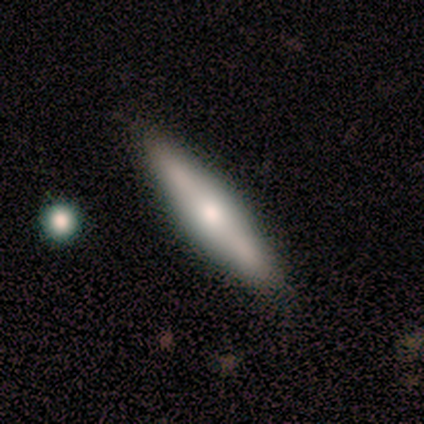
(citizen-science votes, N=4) featured or disk 75%, star or artifact 25%, smooth 0%. Down the decision tree: edge-on disk — yes (100%); edge-on bulge — rounded (67%); merging — minor disturbance (67%).